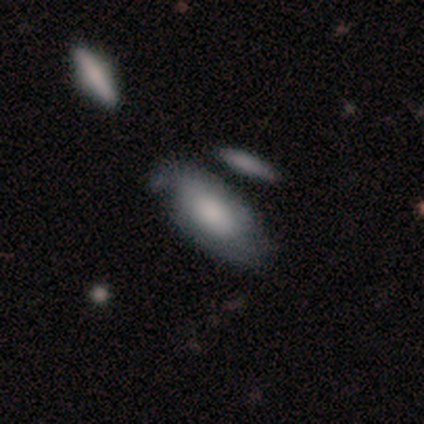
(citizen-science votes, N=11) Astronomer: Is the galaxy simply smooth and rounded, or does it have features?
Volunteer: smooth — 45%, tied with featured or disk at 45%.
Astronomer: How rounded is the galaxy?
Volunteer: in between — 80%.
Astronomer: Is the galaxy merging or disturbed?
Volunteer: none — 60%.